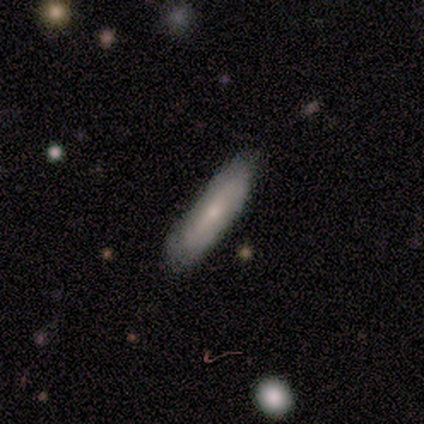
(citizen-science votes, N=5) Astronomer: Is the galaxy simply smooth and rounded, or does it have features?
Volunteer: smooth — 60% (runner-up: featured or disk, 40%).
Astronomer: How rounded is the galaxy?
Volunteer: cigar-shaped — 100%.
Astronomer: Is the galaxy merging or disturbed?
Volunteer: none — 60% (runner-up: minor disturbance, 40%).